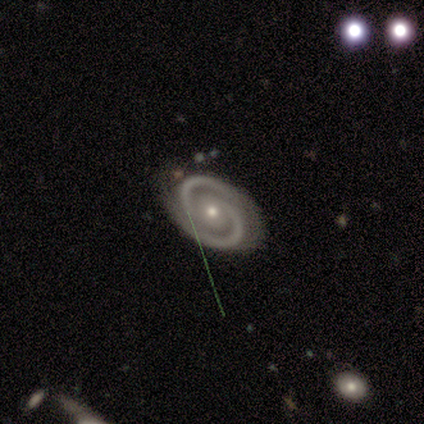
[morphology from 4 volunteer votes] Smooth or featured? featured or disk (100%)
Edge-on disk? no (100%)
Bar? no (75%)
Spiral arms? yes (100%)
Spiral winding? tight (75%)
Spiral arm count? 2 (100%)
Bulge size? small (75%)
Merging? none (75%)